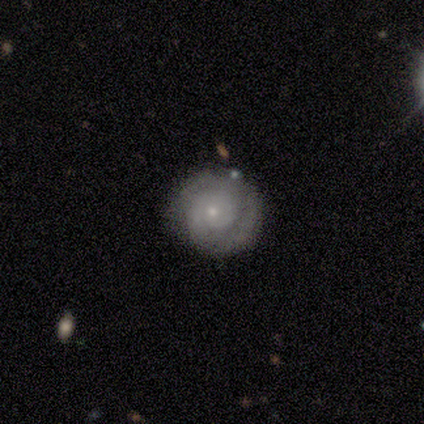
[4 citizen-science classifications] smooth 50% (tied), featured or disk 50% (tied), star or artifact 0%. Down the decision tree: how rounded — round (100%); merging — none (75%).